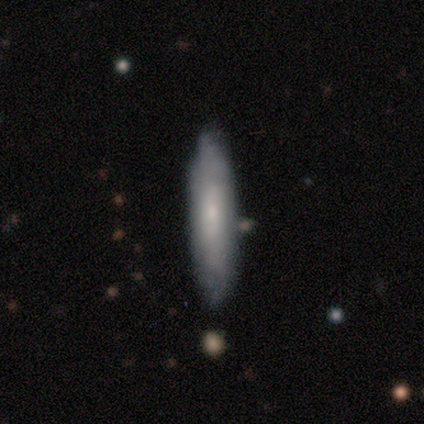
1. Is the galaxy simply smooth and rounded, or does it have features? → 66% smooth, 32% featured or disk, 3% star or artifact.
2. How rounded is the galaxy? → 84% cigar-shaped, 16% in between, 0% round.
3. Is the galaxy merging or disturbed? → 97% none, 3% merger, 0% minor disturbance, 0% major disturbance.